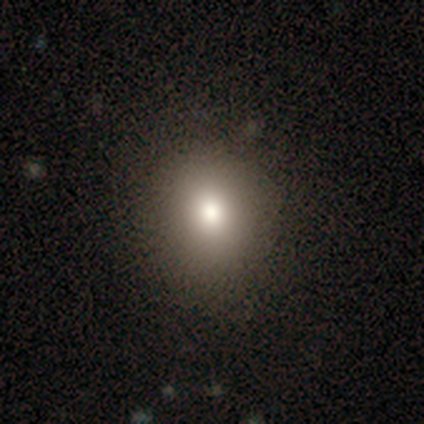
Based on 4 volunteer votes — This appears to be a smooth galaxy with no disk features (75%) that is round (67%). Merging: none (100%).